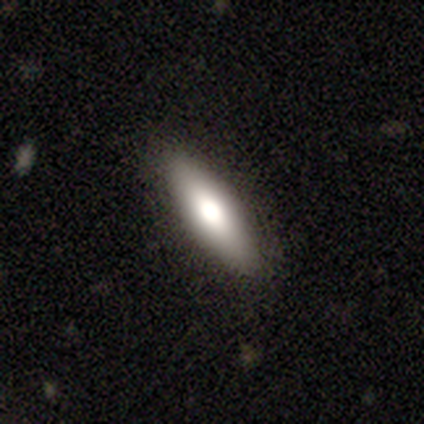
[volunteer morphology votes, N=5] Smooth or featured? featured or disk (80%)
Edge-on disk? yes (75%)
Edge-on bulge? boxy (33%, tied with none and rounded)
Merging? none (100%)